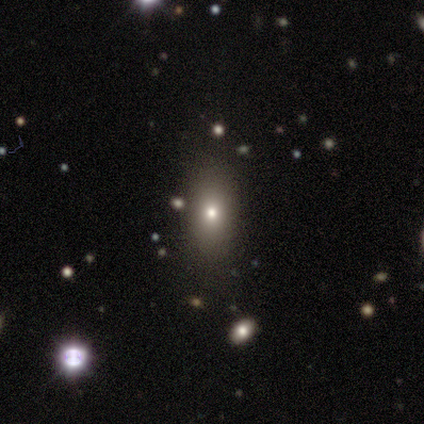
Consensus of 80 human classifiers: smooth 79%, featured or disk 12%, star or artifact 9%. Down the decision tree: how rounded — in between (65%); merging — none (48%).